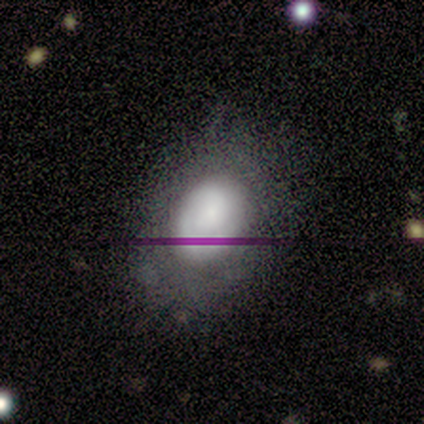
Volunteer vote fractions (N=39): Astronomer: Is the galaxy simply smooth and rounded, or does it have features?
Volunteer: smooth — 62%.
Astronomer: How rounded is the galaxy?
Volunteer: in between — 92%.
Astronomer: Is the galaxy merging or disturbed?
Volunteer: none — 36% (runner-up: major disturbance, 15%).